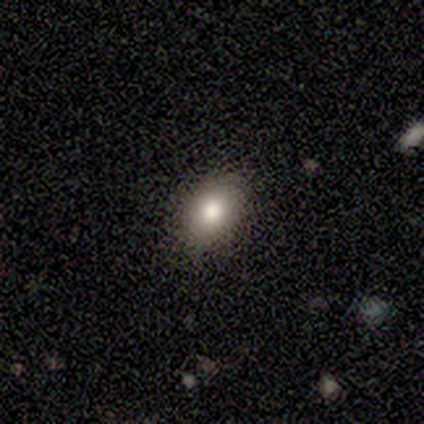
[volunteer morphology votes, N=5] Overall: smooth (100%). How rounded: in between (80%). Merging: none (100%).